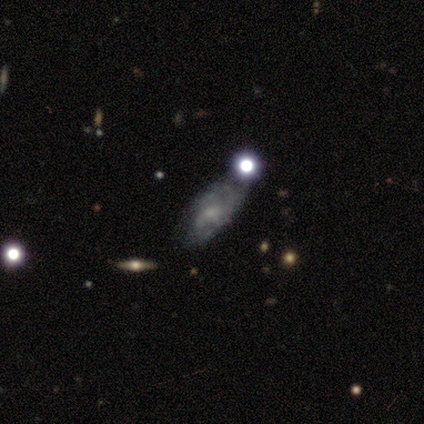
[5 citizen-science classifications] smooth_or_featured: smooth (p=0.40) [tied with: featured or disk p=0.40]
how_rounded: in between (p=1.00)
merging: none (p=0.50) [tied with: minor disturbance p=0.50]